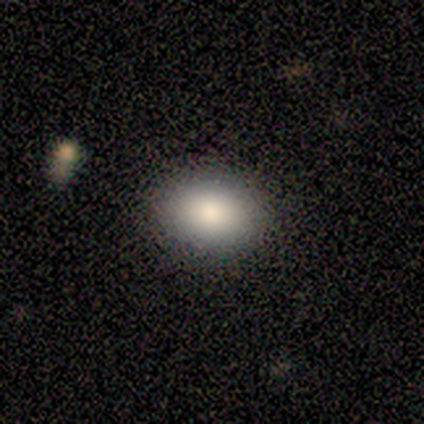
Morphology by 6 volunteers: This appears to be a smooth galaxy with no disk features (50%) that is round (67%). Merging: none (100%).